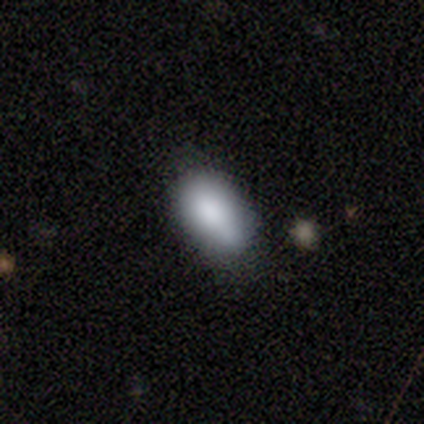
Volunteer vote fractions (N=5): Q: Smooth or featured?
A: smooth (80%); runner-up: featured or disk (20%)
Q: How rounded?
A: in between (100%)
Q: Merging?
A: none (80%); runner-up: minor disturbance (20%)